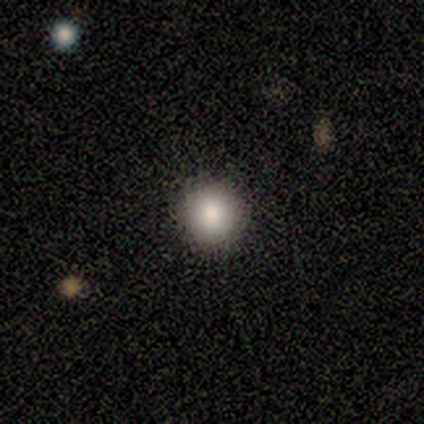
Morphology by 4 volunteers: Consensus on every question: smooth or featured — smooth (100%); how rounded — round (100%); merging — none (100%).